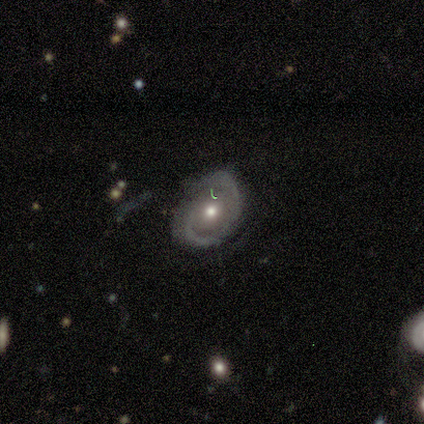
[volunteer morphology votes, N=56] Smooth or featured? featured or disk (77%)
Edge-on disk? no (95%)
Bar? no (80%)
Spiral arms? yes (76%)
Spiral winding? medium (52%)
Spiral arm count? 2 (90%)
Bulge size? moderate (63%)
Merging? none (61%)